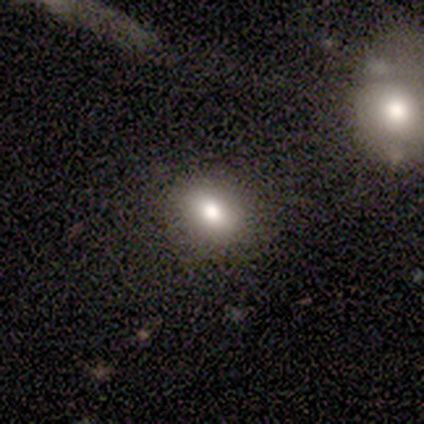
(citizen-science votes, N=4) Smooth or featured?
  - smooth: 75% *
  - featured or disk: 25%
  - star or artifact: 0%
How rounded?
  - in between: 100% *
  - round: 0%
  - cigar-shaped: 0%
Merging?
  - none: 75% *
  - minor disturbance: 25%
  - major disturbance: 0%
  - merger: 0%